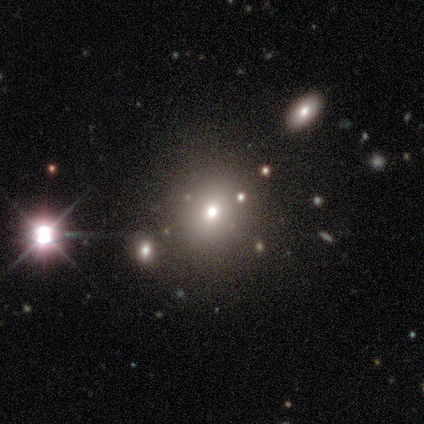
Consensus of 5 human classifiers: Overall: star or artifact (60%; smooth 40%).